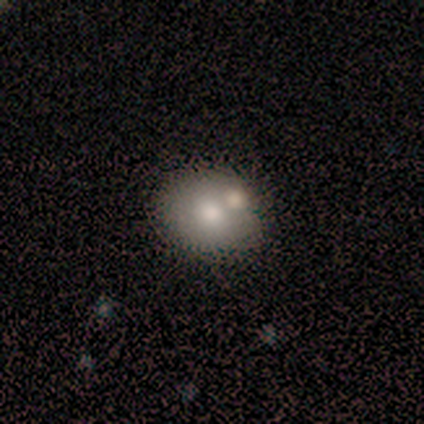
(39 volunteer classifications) Smooth or featured? 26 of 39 (67%) said smooth. How rounded? 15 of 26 (58%) said round. Merging? 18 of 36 (50%) said none.